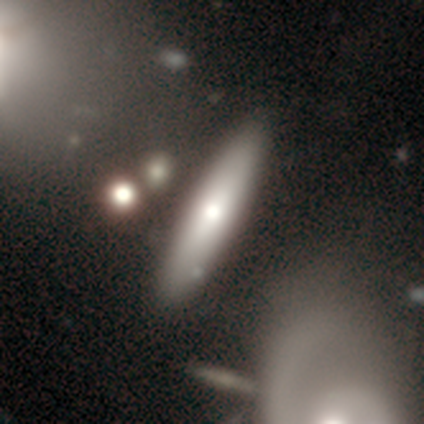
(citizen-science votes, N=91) This is possibly a smooth galaxy (58%). How rounded: clearly cigar-shaped (85%). Merging: likely none (75%).